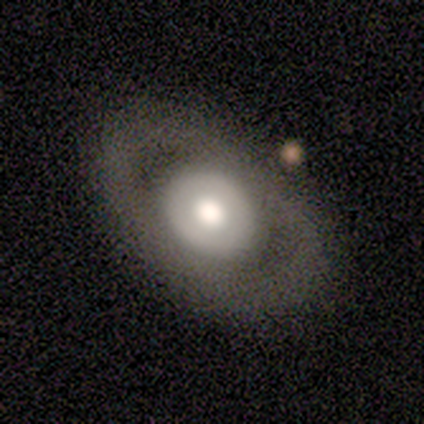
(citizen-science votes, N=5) Smooth or featured? 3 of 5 (60%) said smooth. How rounded? 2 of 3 (67%) said in between. Merging? 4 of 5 (80%) said none.